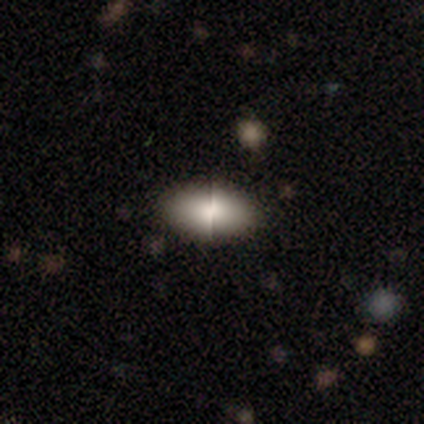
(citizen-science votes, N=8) A smooth galaxy with no disk features (50%) that is in between round and cigar-shaped (100%). Merging: none (100%).